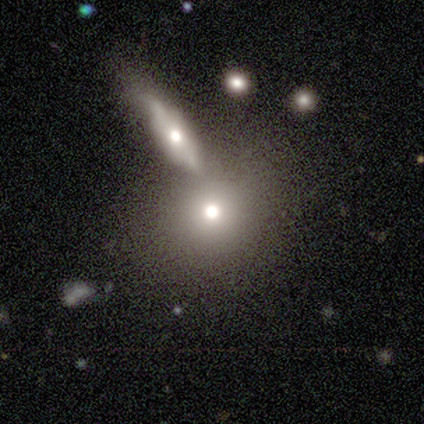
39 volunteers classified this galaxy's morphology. smooth-or-featured: smooth: 67% | featured or disk: 23% | star or artifact: 10%
  how-rounded: round: 65% | in between: 31% | cigar-shaped: 4%
  merging: none: 57% | merger: 26% | minor disturbance: 9% | major disturbance: 9%